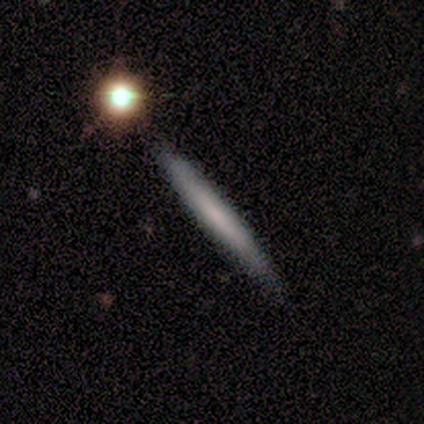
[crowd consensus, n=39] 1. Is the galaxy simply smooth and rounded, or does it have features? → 54% smooth, 36% featured or disk, 10% star or artifact.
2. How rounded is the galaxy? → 100% cigar-shaped, 0% round, 0% in between.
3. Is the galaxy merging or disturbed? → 74% none, 9% minor disturbance, 0% major disturbance, 0% merger.